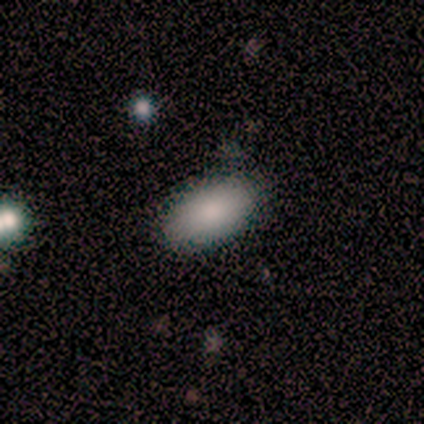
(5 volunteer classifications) This appears to be a smooth galaxy with no disk features (80%) that is in between round and cigar-shaped (100%). Merging: none (50%, tied with minor disturbance).